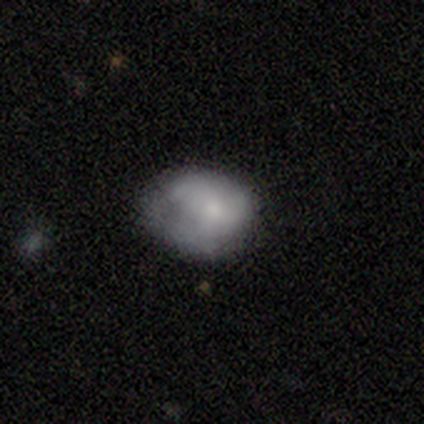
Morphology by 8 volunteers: smooth 75%, featured or disk 12%, star or artifact 12%. Down the decision tree: how rounded — in between (100%); merging — minor disturbance (57%).